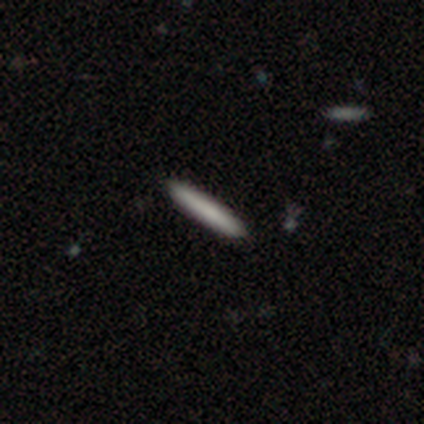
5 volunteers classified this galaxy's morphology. Overall: smooth (100%). How rounded: cigar-shaped (80%). Merging: none (60%; minor disturbance 20%).